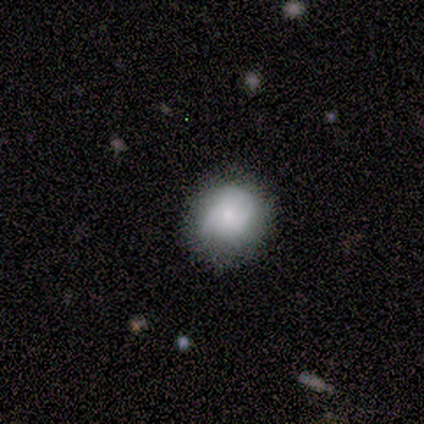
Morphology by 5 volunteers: This is likely a smooth galaxy (60%). How rounded: likely in between (67%). Merging: likely minor disturbance (67%).